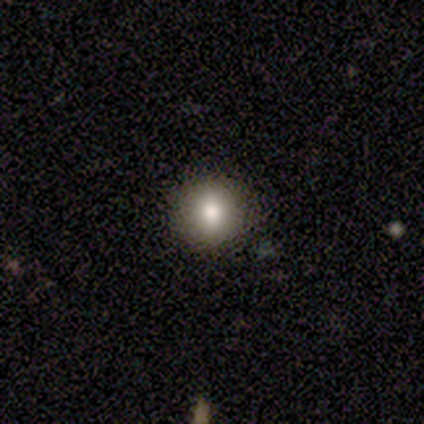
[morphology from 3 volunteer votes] Q: Smooth or featured?
A: smooth (100%)
Q: How rounded?
A: round (100%)
Q: Merging?
A: none (100%)